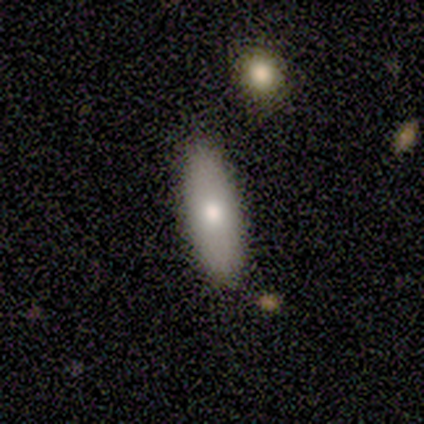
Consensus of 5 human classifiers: Smooth or featured? smooth (100%)
How rounded? in between (60%)
Merging? none (100%)